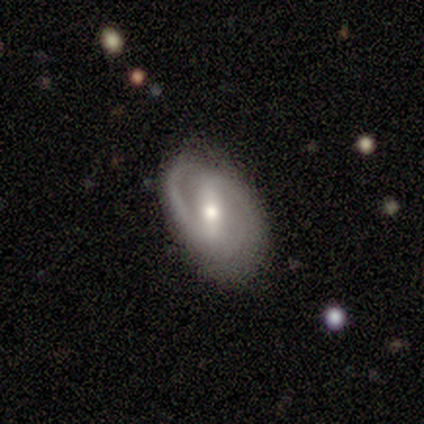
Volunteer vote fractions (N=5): Smooth or featured? featured or disk (60%)
Edge-on disk? no (100%)
Bar? strong (67%)
Spiral arms? yes (100%)
Spiral winding? medium (67%)
Spiral arm count? 2 (100%)
Bulge size? moderate (67%)
Merging? none (60%)